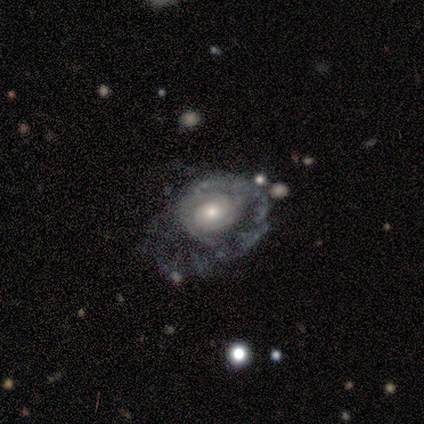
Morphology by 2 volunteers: Overall: featured or disk (100%). Edge-on disk: no (100%). Bar: weak (50%, tied with no). Spiral arms: yes (100%). Spiral arm count: 1 (50%, tied with 3). Spiral winding: tight (50%, tied with medium). Bulge size: moderate (100%). Merging: none (50%, tied with merger).